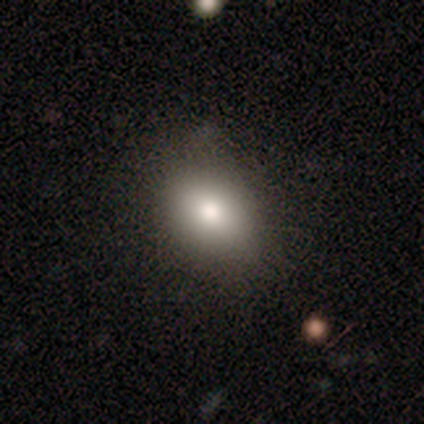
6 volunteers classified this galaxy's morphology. Q: Smooth or featured?
A: smooth (100%)
Q: How rounded?
A: in between (83%); runner-up: round (17%)
Q: Merging?
A: none (100%)